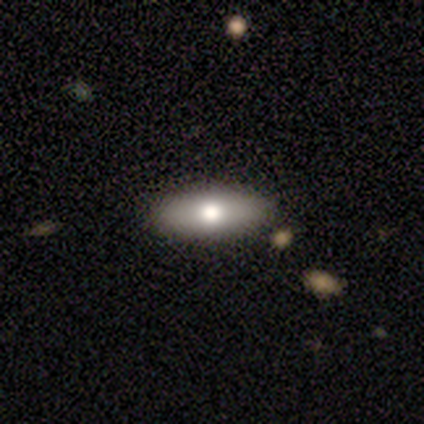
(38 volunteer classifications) smooth-or-featured: smooth: 55% | featured or disk: 32% | star or artifact: 13%
  how-rounded: in between: 76% | cigar-shaped: 24% | round: 0%
  merging: none: 85% | minor disturbance: 12% | merger: 3% | major disturbance: 0%